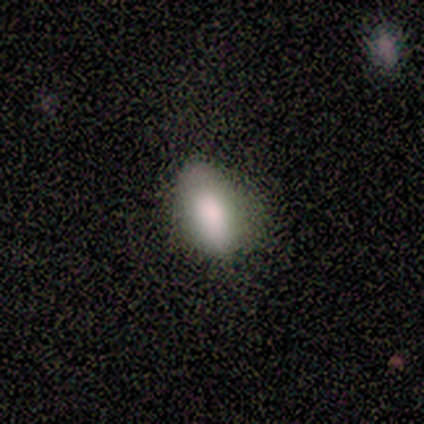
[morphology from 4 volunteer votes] type=smooth (100%); roundness=in between (75%); merging=none (50%, tied with minor disturbance).